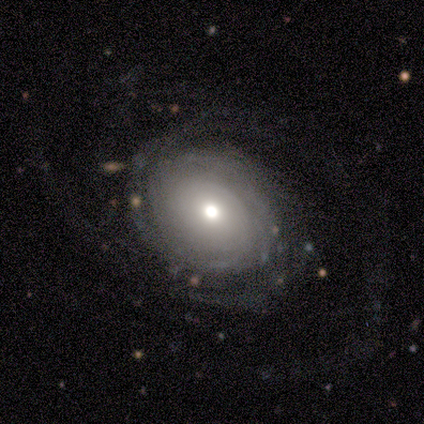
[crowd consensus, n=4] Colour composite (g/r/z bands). It shows a featured or disk galaxy (100%) with a weak bar (50%, tied with no), 2 (50%, tied with can't tell) tight (75%) spiral arms (100%) and a moderate central bulge (75%). Merging: none (75%).